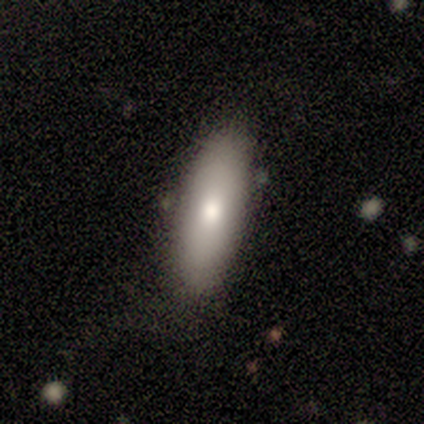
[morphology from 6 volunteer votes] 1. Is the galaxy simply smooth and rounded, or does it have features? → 100% smooth, 0% featured or disk, 0% star or artifact.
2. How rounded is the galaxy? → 50% in between (tied), 50% cigar-shaped (tied), 0% round.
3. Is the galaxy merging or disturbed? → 83% none, 17% minor disturbance, 0% major disturbance, 0% merger.